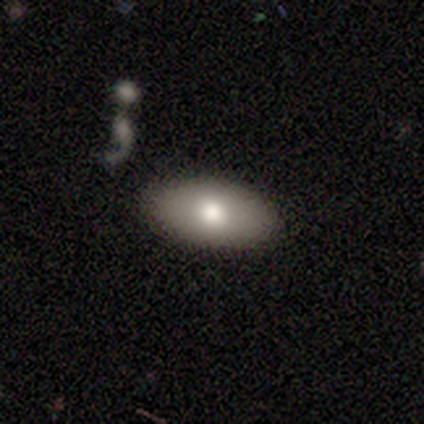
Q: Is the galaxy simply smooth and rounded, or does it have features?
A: smooth — 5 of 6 (83%).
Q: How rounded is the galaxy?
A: in between — 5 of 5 (100%).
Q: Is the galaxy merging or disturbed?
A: none — 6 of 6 (100%).